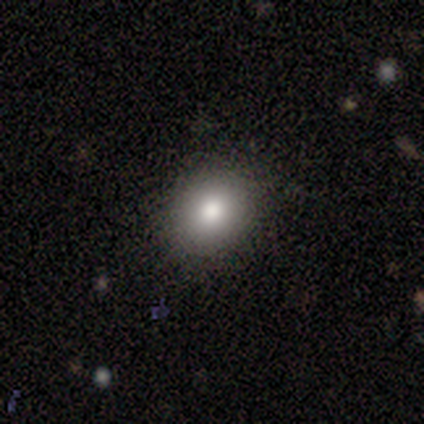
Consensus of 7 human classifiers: Smooth or featured? smooth (71%)
How rounded? round (60%)
Merging? none (100%)